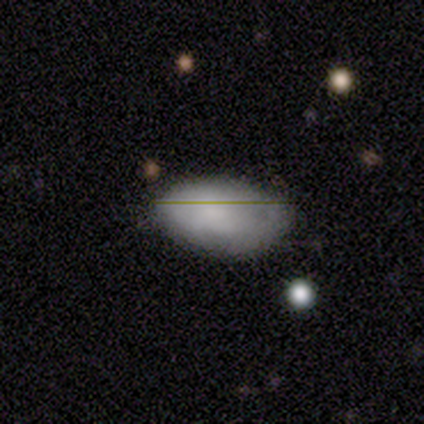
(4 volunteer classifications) smooth_or_featured: smooth (p=1.00)
how_rounded: in between (p=1.00)
merging: none (p=1.00)